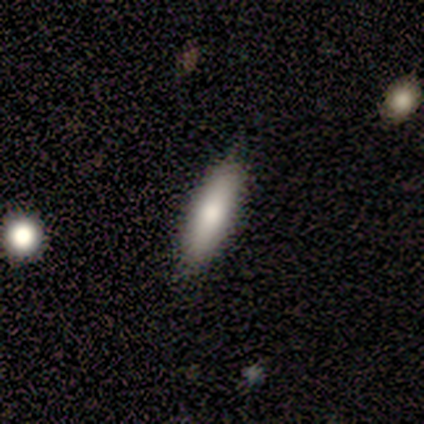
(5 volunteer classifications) smooth-or-featured: smooth: 100% | featured or disk: 0% | star or artifact: 0%
  how-rounded: cigar-shaped: 60% | in between: 40% | round: 0%
  merging: none: 80% | minor disturbance: 20% | major disturbance: 0% | merger: 0%